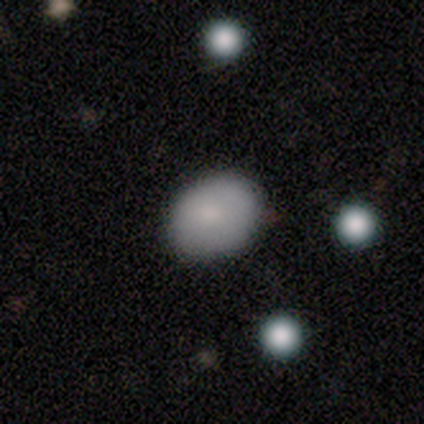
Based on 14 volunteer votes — Smooth or featured? smooth (79%)
How rounded? in between (55%)
Merging? none (85%)